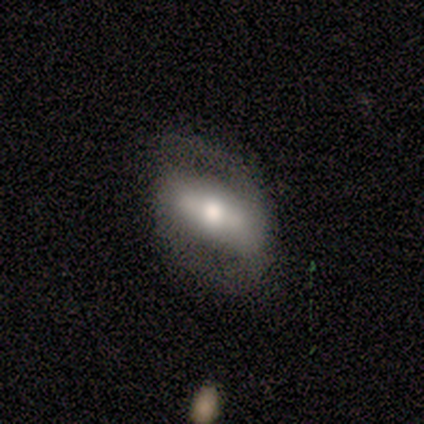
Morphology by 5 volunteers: featured or disk 60%, smooth 40%, star or artifact 0%. Down the decision tree: edge-on disk — no (100%); bar — strong (33%, tied with weak and no); spiral arms — no (67%); bulge size — moderate (100%); merging — none (60%).